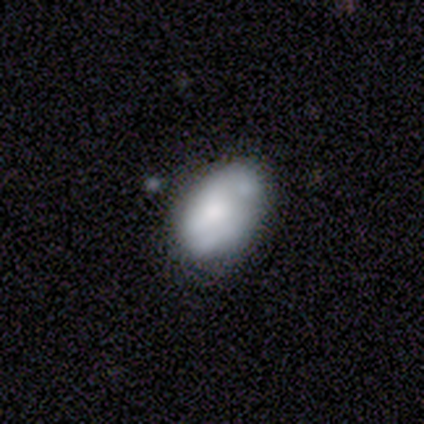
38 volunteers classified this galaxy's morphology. Q: Smooth or featured?
A: smooth (55%); runner-up: featured or disk (37%)
Q: How rounded?
A: in between (95%); runner-up: round (5%)
Q: Merging?
A: none (46%); runner-up: minor disturbance (40%)